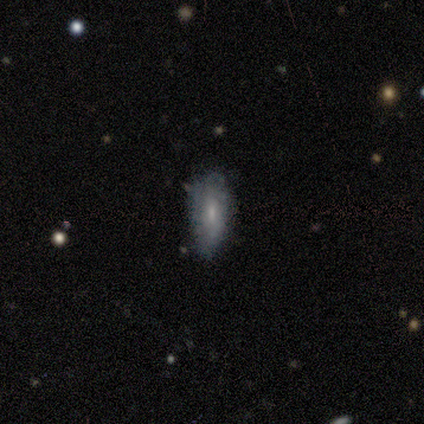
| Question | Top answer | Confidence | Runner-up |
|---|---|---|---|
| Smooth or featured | featured or disk | 60% | smooth (40%) |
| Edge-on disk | no | 100% | — |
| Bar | no | 67% | weak (33%) |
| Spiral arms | no | 100% | — |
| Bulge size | moderate | 67% | small (33%) |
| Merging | minor disturbance | 80% | none (20%) |